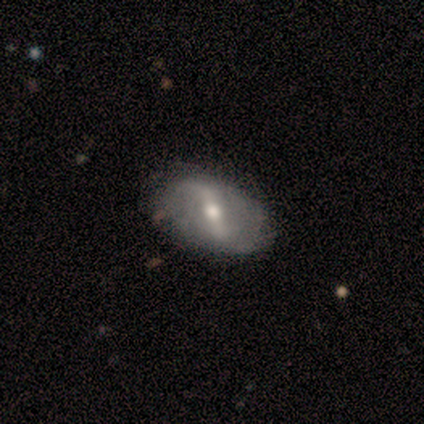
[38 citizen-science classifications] This appears to be a featured or disk galaxy (84%) with a strong bar (43%), 2 (84%) loose (72%) spiral arms (83%) and a moderate central bulge (77%). Merging: none (70%).